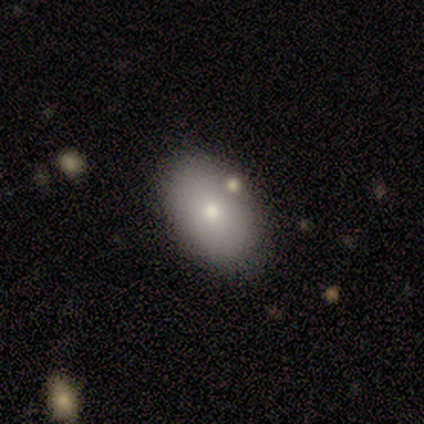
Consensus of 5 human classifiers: Volunteers were most divided on "smooth or featured": smooth: 60%, featured or disk: 40%, star or artifact: 0%. More confident: how rounded — in between (100%); merging — none (80%).